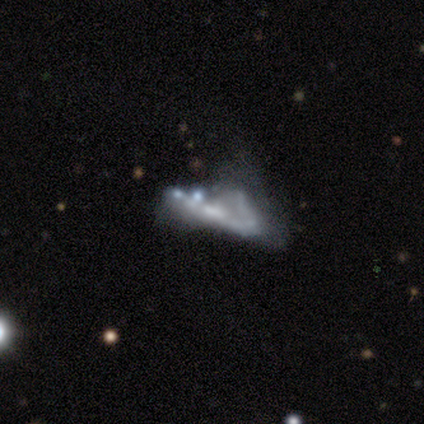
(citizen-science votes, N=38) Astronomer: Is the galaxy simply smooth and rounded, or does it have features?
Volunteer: featured or disk — 76%.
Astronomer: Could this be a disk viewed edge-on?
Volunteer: no — 69%.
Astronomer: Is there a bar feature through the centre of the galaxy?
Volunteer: no — 60%.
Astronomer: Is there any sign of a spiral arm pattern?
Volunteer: no — 80%.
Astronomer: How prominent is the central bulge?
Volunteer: none — 60%.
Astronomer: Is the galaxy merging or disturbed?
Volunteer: major disturbance — 47%.